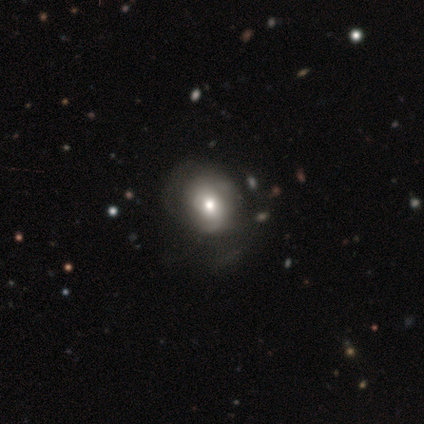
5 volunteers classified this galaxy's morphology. Smooth or featured? smooth (60%)
How rounded? round (67%)
Merging? minor disturbance (60%)